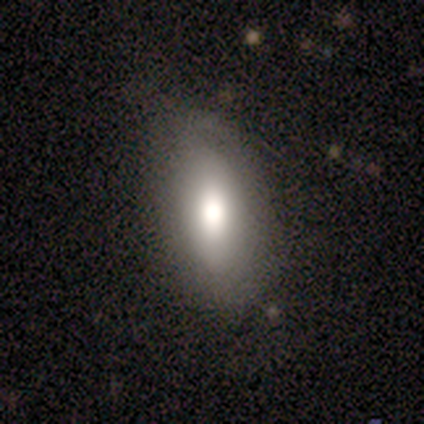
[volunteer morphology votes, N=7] This appears to be a smooth galaxy with no disk features (71%) that is in between round and cigar-shaped (100%). Merging: none (86%).